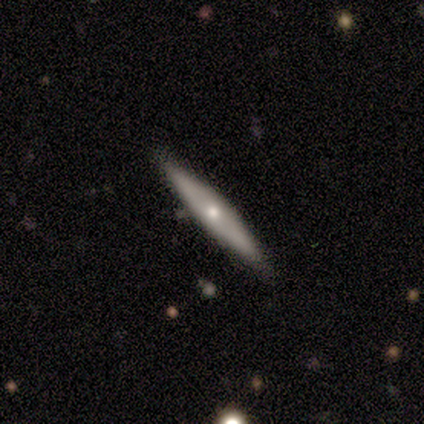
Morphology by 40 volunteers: smooth-or-featured: featured or disk: 57% | smooth: 38% | star or artifact: 5%
  disk-edge-on: yes: 87% | no: 13%
    edge-on-bulge: rounded: 80% | boxy: 10% | none: 10%
  merging: none: 95% | minor disturbance: 5% | major disturbance: 0% | merger: 0%